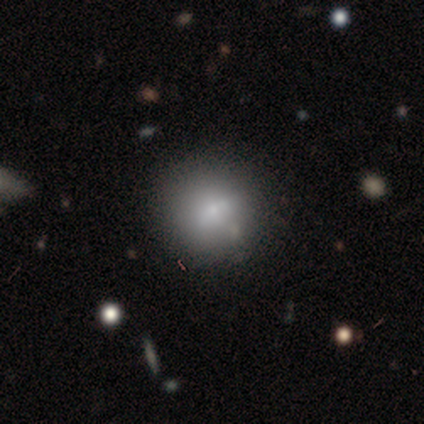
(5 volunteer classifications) Q: Smooth or featured?
A: smooth (80%); runner-up: featured or disk (20%)
Q: How rounded?
A: round (75%); runner-up: in between (25%)
Q: Merging?
A: none (60%); runner-up: minor disturbance (20%)